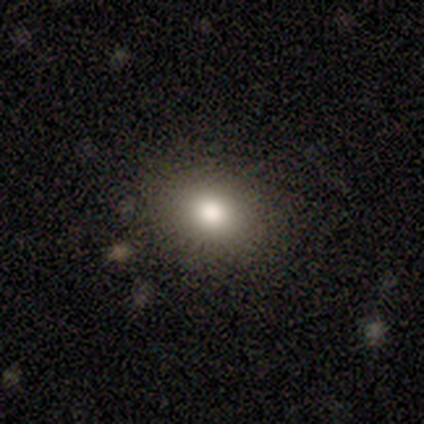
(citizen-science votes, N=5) Volunteers were most divided on "smooth or featured" (2-way tie): smooth: 40%, star or artifact: 40%, featured or disk: 20%; "how rounded" (2-way tie): round: 50%, in between: 50%, cigar-shaped: 0%. More confident: merging — none (100%).